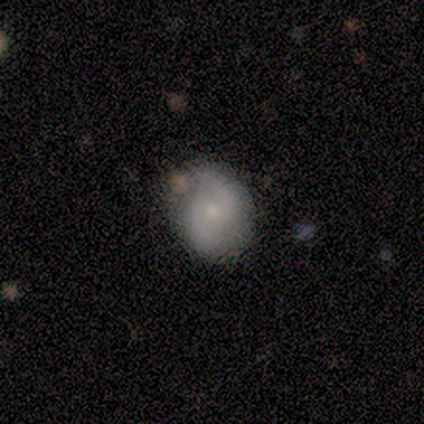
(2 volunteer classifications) Smooth or featured? 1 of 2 (50%, tied with featured or disk) said smooth. How rounded? 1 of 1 (100%) said in between. Merging? 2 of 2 (100%) said none.